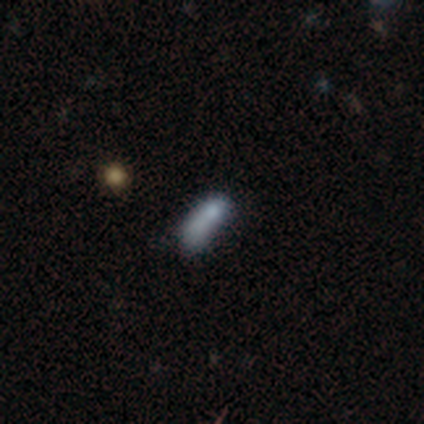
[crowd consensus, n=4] This appears to be a smooth galaxy with no disk features (75%) that is cigar-shaped (100%). Merging: none (75%).